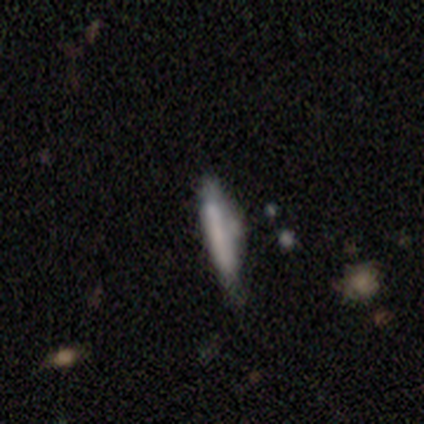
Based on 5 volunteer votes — Overall: featured or disk (80%). Edge-on disk: yes (100%). Edge-on bulge: boxy (50%; none 25%). Merging: minor disturbance (75%).